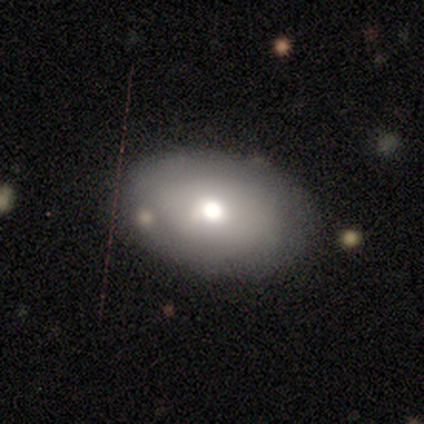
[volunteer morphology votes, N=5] Smooth or featured: smooth — 80% (featured or disk — 20%)
How rounded: in between — 100%
Merging: none — 100%